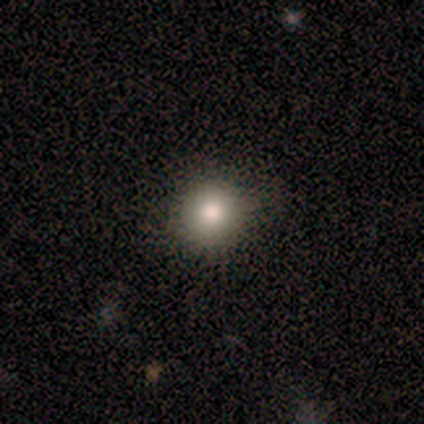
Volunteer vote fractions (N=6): A featured or disk galaxy (50%) with no bar (100%), no spiral arms (100%) and a large central bulge (67%). Merging: none (80%).